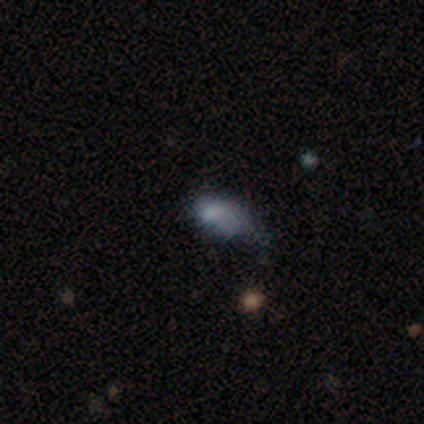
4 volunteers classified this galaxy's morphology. Smooth or featured?
  - smooth: 75% *
  - featured or disk: 25%
  - star or artifact: 0%
How rounded?
  - in between: 100% *
  - round: 0%
  - cigar-shaped: 0%
Merging?
  - major disturbance: 75% *
  - none: 25%
  - minor disturbance: 0%
  - merger: 0%